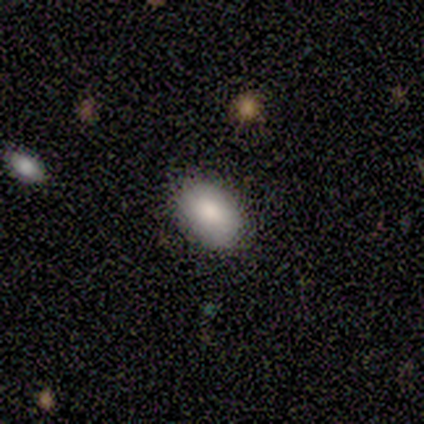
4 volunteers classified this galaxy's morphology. This appears to be a smooth galaxy with no disk features (75%) that is in between round and cigar-shaped (67%). Merging: none (100%).